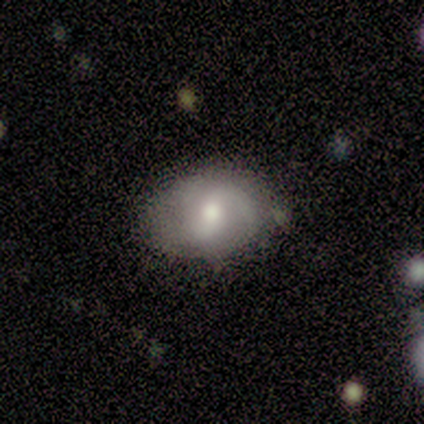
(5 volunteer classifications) Smooth or featured?
  - smooth: 40% * (tied)
  - featured or disk: 40% * (tied)
  - star or artifact: 20%
How rounded?
  - in between: 100% *
  - round: 0%
  - cigar-shaped: 0%
Merging?
  - none: 100% *
  - minor disturbance: 0%
  - major disturbance: 0%
  - merger: 0%